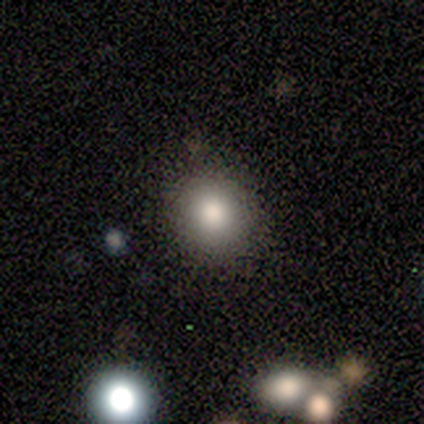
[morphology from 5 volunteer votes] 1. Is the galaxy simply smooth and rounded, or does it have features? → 100% smooth, 0% featured or disk, 0% star or artifact.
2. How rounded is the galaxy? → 60% round, 40% in between, 0% cigar-shaped.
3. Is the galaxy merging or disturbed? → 80% none, 20% minor disturbance, 0% major disturbance, 0% merger.